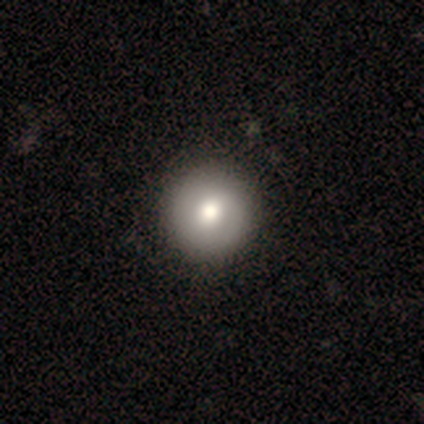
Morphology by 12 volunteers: A smooth galaxy with no disk features (83%) that is round (90%). Merging: none (83%).